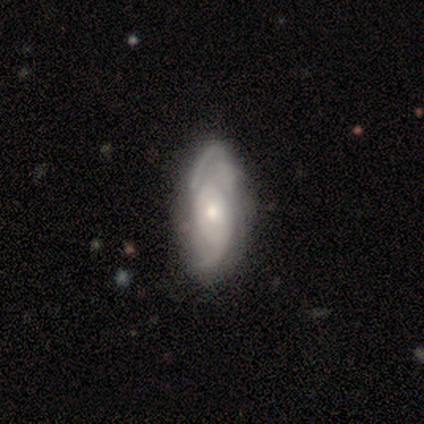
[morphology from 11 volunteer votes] type=featured or disk (82%); edge-on=no (100%); bar=no (56%); spiral arms=yes (78%); winding=tight (43%, tied with medium); arm count=can't tell (57%); bulge=moderate (56%); merging=none (60%).